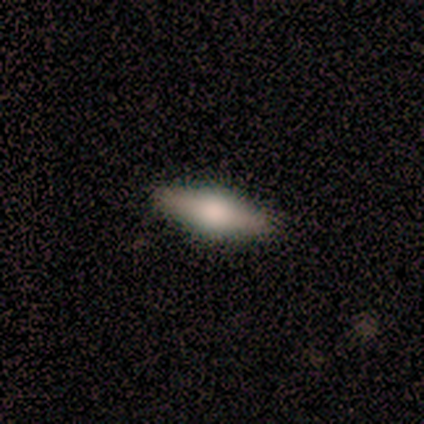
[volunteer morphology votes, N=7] type=featured or disk (57%); edge-on=yes (75%); edge-on bulge=rounded (100%); merging=none (100%).